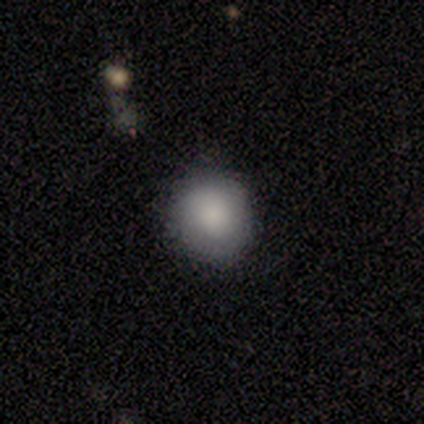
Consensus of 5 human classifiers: smooth 100%, featured or disk 0%, star or artifact 0%. Down the decision tree: how rounded — round (80%); merging — none (100%).